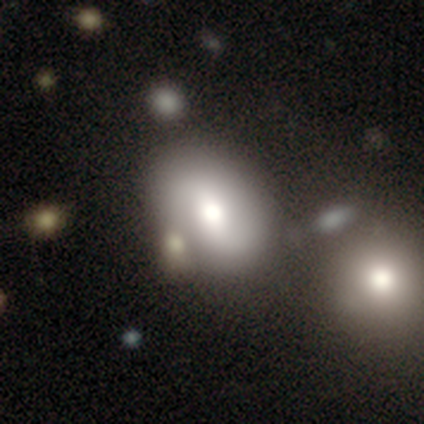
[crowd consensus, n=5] Volunteers were most divided on "how rounded": in between: 75%, round: 25%, cigar-shaped: 0%. More confident: merging — none (100%); smooth or featured — smooth (80%).